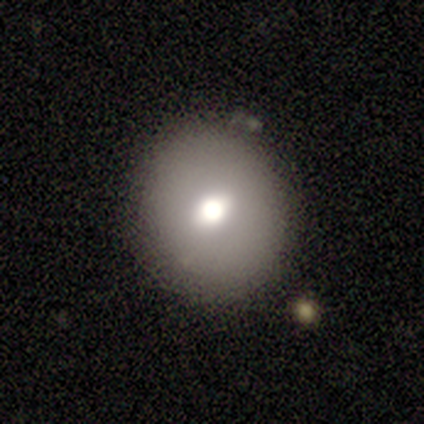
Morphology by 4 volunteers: Overall: smooth (50%, tied with featured or disk). How rounded: round (100%). Merging: none (75%).